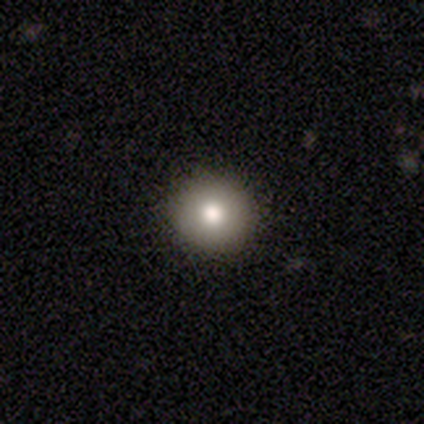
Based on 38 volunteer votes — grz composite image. It shows a smooth galaxy with no disk features (79%) that is round (97%). Merging: none (87%).